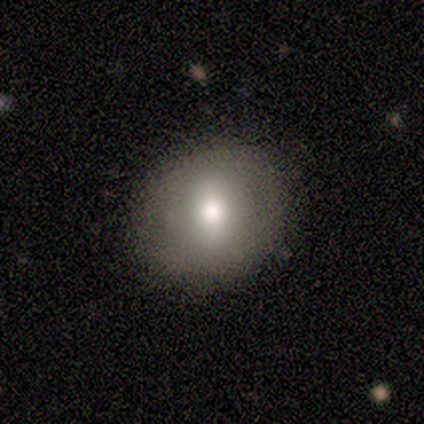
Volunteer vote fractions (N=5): Overall: featured or disk (60%; smooth 40%). Edge-on disk: no (100%). Bar: strong (33%, tied with weak and no). Spiral arms: no (100%). Bulge size: moderate (100%). Merging: none (80%).